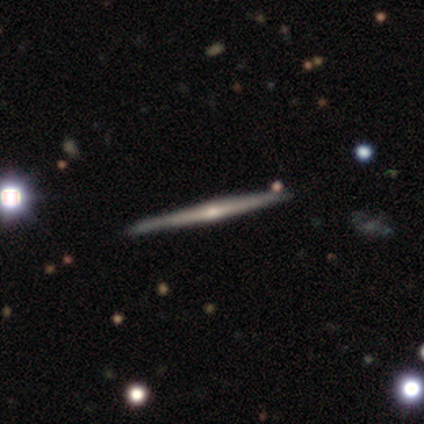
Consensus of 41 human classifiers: Morphology: type=featured or disk (73%); edge-on=yes (100%); edge-on bulge=rounded (87%); merging=none (76%).